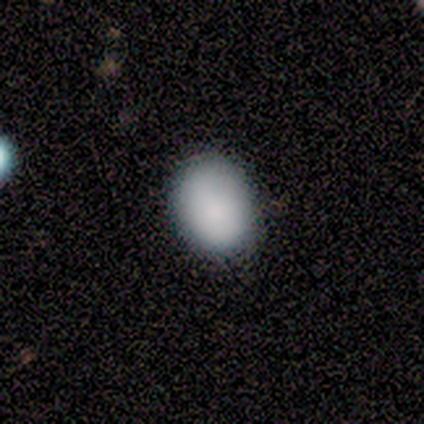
Smooth or featured? 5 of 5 (100%) said smooth. How rounded? 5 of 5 (100%) said in between. Merging? 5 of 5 (100%) said none.